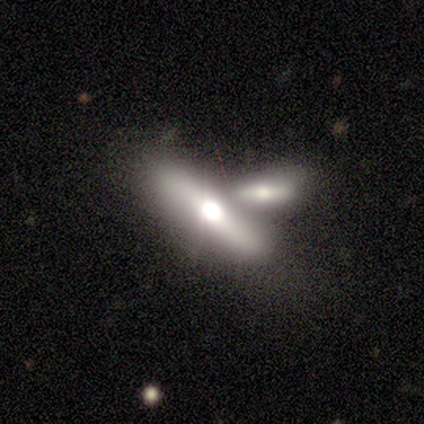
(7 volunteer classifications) A featured or disk galaxy (71%) viewed edge-on (100%) with a rounded central bulge (100%). Merging: none (43%, tied with merger).